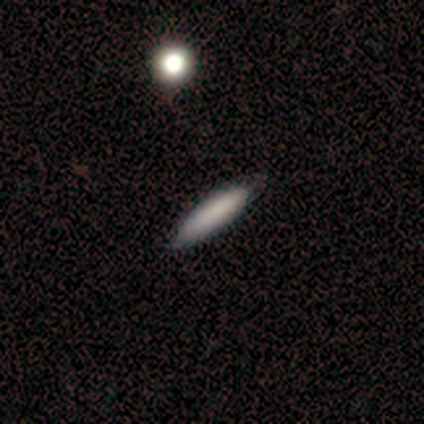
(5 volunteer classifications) This appears to be a smooth galaxy with no disk features (60%) that is cigar-shaped (100%). Merging: none (80%).